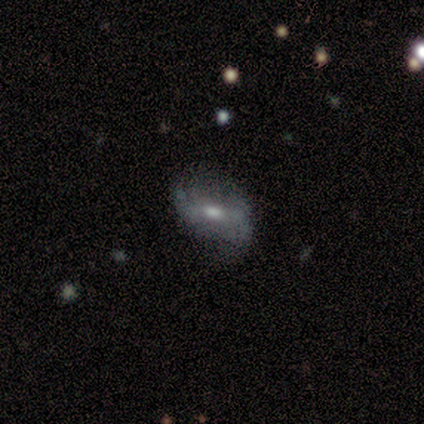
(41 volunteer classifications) A featured or disk galaxy (76%) with a weak bar (55%), 2 (73%) loose (69%) spiral arms (84%) and a moderate central bulge (55%).

Vote fractions:
- Smooth or featured? featured or disk: 76% / smooth: 22% / star or artifact: 2%
- Edge-on disk? no: 100% / yes: 0%
- Bar? weak: 55% / no: 32% / strong: 13%
- Spiral arms? yes: 84% / no: 16%
- Spiral winding? loose: 69% / medium: 19% / tight: 12%
- Spiral arm count? 2: 73% / can't tell: 23% / 3: 4% / 1: 0% / 4: 0% / more than 4: 0%
- Bulge size? moderate: 55% / small: 32% / large: 10% / none: 3% / dominant: 0%
- Merging? none: 65% / minor disturbance: 20% / major disturbance: 12% / merger: 2%